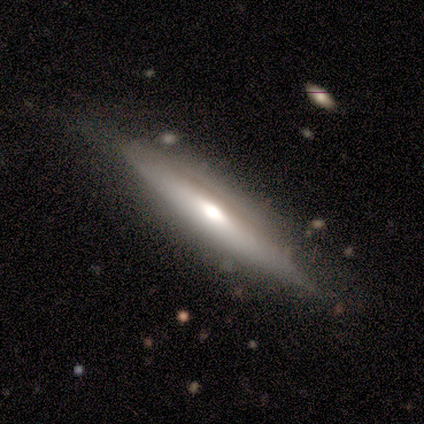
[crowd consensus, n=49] Q: Smooth or featured?
A: featured or disk (71%); runner-up: smooth (18%)
Q: Edge-on disk?
A: yes (89%); runner-up: no (11%)
Q: Edge-on bulge?
A: rounded (84%); runner-up: boxy (13%)
Q: Merging?
A: none (75%); runner-up: minor disturbance (16%)